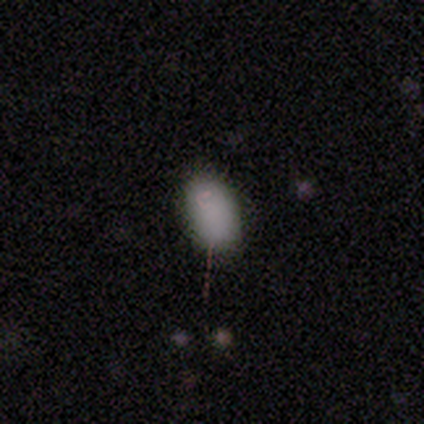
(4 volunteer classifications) Q: Smooth or featured?
A: smooth (75%); runner-up: featured or disk (25%)
Q: How rounded?
A: in between (100%)
Q: Merging?
A: none (50%); runner-up: minor disturbance (25%)